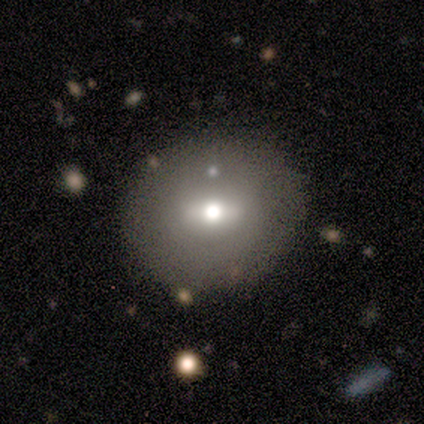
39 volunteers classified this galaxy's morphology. Overall: smooth (67%). How rounded: round (88%). Merging: none (86%).